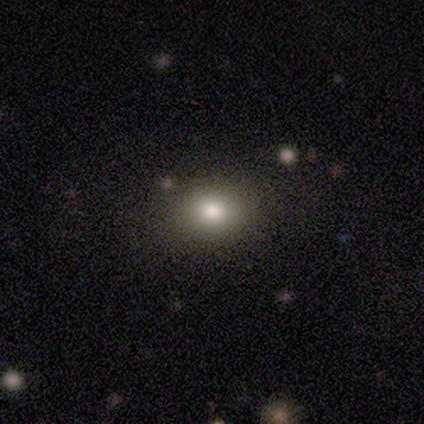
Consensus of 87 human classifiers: smooth-or-featured: smooth: 67% | star or artifact: 25% | featured or disk: 8%
  how-rounded: in between: 57% | round: 43% | cigar-shaped: 0%
  merging: none: 89% | minor disturbance: 9% | major disturbance: 2% | merger: 0%